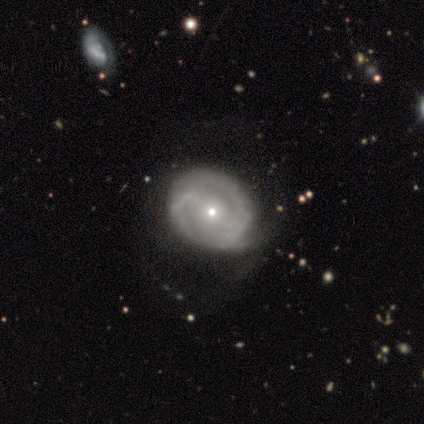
Q: Smooth or featured?
A: featured or disk (78%); runner-up: smooth (18%)
Q: Edge-on disk?
A: no (98%); runner-up: yes (2%)
Q: Bar?
A: strong (36%); tied with: no (36%)
Q: Spiral arms?
A: yes (67%); runner-up: no (33%)
Q: Spiral winding?
A: tight (49%); runner-up: medium (38%)
Q: Spiral arm count?
A: 2 (62%); runner-up: can't tell (26%)
Q: Bulge size?
A: small (62%); runner-up: moderate (38%)
Q: Merging?
A: none (37%); runner-up: minor disturbance (18%)